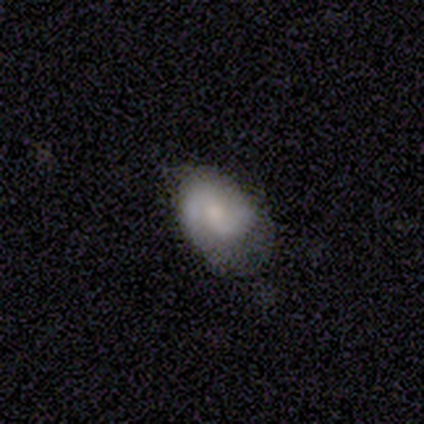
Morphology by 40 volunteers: smooth_or_featured: featured or disk (p=0.60) [alt: smooth p=0.33]
disk_edge_on: no (p=1.00)
bar: weak (p=0.50) [alt: no p=0.29]
has_spiral_arms: yes (p=0.88) [alt: no p=0.12]
spiral_winding: medium (p=0.52) [alt: tight p=0.29]
spiral_arm_count: 2 (p=0.90) [alt: 1 p=0.10]
bulge_size: moderate (p=0.50) [alt: small p=0.33]
merging: none (p=0.41) [alt: minor disturbance p=0.32]